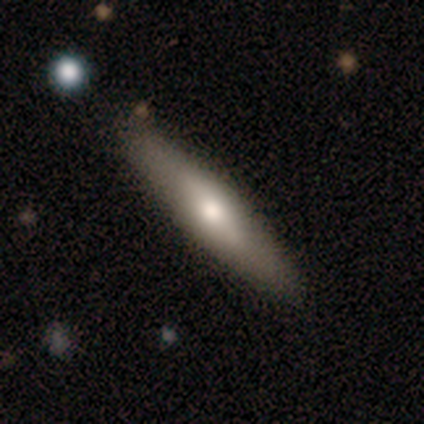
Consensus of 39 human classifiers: Smooth or featured? 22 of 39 (56%) said smooth. How rounded? 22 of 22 (100%) said cigar-shaped. Merging? 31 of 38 (82%) said none.